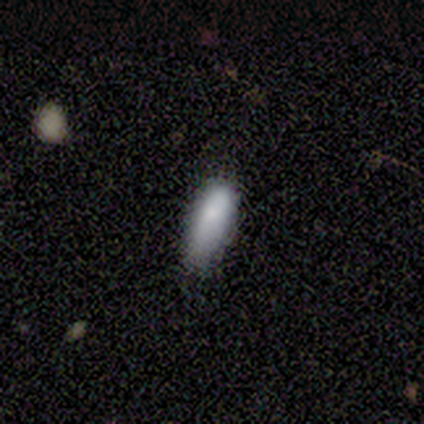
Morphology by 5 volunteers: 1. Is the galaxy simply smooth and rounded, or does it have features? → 100% smooth, 0% featured or disk, 0% star or artifact.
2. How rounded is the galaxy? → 60% in between, 40% cigar-shaped, 0% round.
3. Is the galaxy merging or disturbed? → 60% minor disturbance, 40% none, 0% major disturbance, 0% merger.